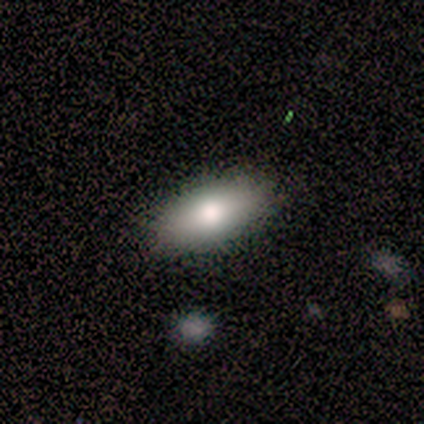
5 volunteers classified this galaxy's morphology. Q: Smooth or featured?
A: smooth (100%)
Q: How rounded?
A: in between (80%); runner-up: cigar-shaped (20%)
Q: Merging?
A: none (80%); runner-up: minor disturbance (20%)